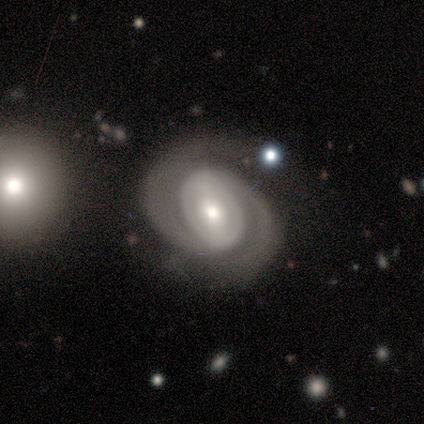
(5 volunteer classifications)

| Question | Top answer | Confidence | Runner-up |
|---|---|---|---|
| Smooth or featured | featured or disk | 80% | smooth (20%) |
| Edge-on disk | no | 75% | yes (25%) |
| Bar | no | 100% | — |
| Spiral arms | yes | 100% | — |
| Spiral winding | tight | 67% | medium (33%) |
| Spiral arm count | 2 | 67% | 1 (33%) |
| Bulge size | moderate | 67% | small (33%) |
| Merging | none | 80% | major disturbance (20%) |